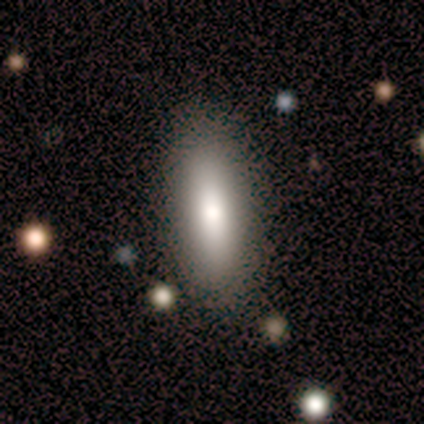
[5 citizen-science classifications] Volunteers were most divided on "how rounded": in between: 67%, cigar-shaped: 33%, round: 0%. More confident: merging — none (75%); smooth or featured — smooth (60%).